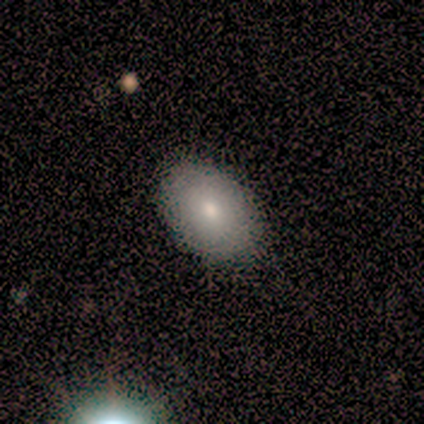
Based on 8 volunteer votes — This appears to be a smooth galaxy with no disk features (100%) that is in between round and cigar-shaped (100%). Merging: none (88%).